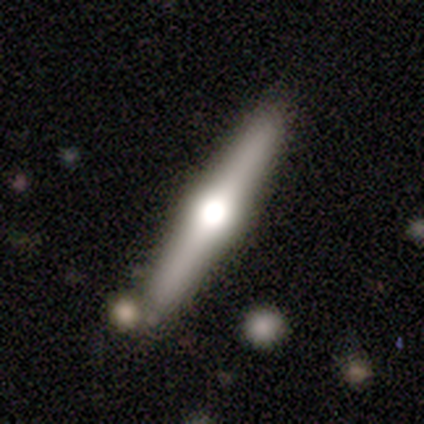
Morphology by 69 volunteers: Smooth or featured?
  - featured or disk: 74% *
  - smooth: 22%
  - star or artifact: 4%
Edge-on disk?
  - yes: 98% *
  - no: 2%
Edge-on bulge?
  - rounded: 98% *
  - boxy: 2%
  - none: 0%
Merging?
  - none: 83% *
  - minor disturbance: 8%
  - merger: 8%
  - major disturbance: 2%